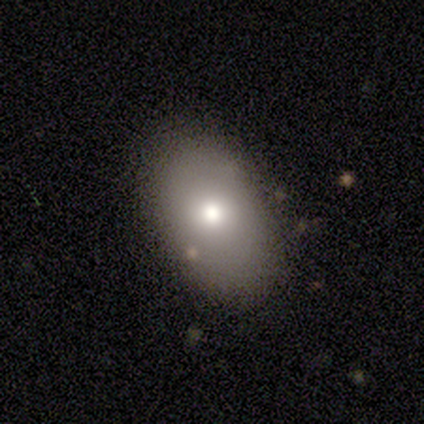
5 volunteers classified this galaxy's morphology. A smooth galaxy with no disk features (40%, tied with featured or disk) that is round (50%, tied with in between).

Vote fractions:
- Smooth or featured? smooth: 40% (tied) / featured or disk: 40% (tied) / star or artifact: 20%
- How rounded? round: 50% (tied) / in between: 50% (tied) / cigar-shaped: 0%
- Merging? none: 100% / minor disturbance: 0% / major disturbance: 0% / merger: 0%